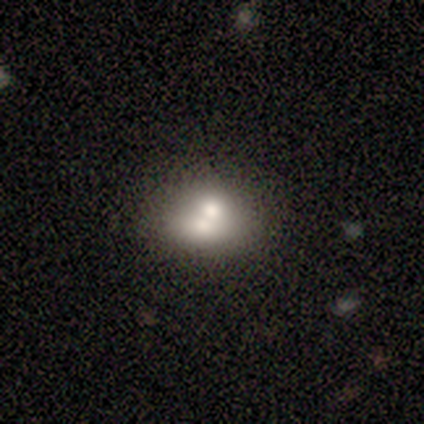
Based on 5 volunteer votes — Smooth or featured? 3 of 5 (60%) said smooth. How rounded? 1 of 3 (33%, tied with in between and cigar-shaped) said round. Merging? 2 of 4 (50%) said none.